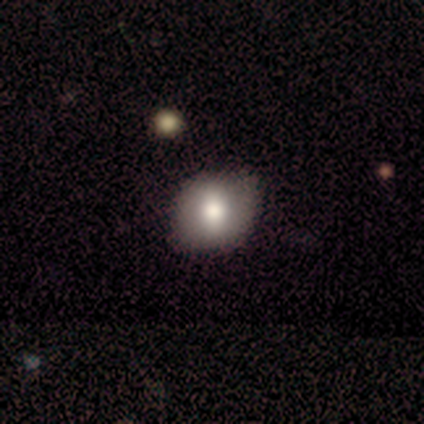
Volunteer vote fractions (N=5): smooth 80%, featured or disk 20%, star or artifact 0%. Down the decision tree: how rounded — round (50%, tied with in between); merging — none (80%).